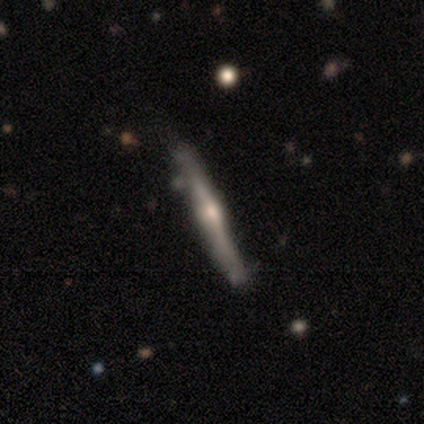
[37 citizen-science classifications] Smooth or featured? featured or disk (84%)
Edge-on disk? yes (100%)
Edge-on bulge? rounded (84%)
Merging? none (78%)